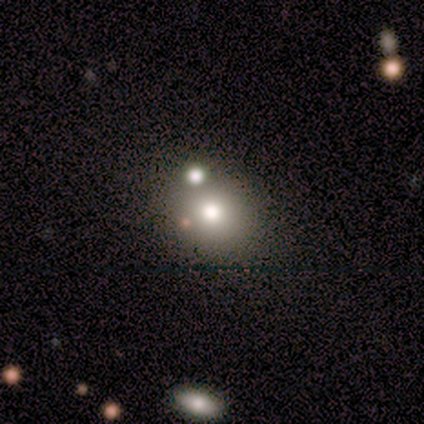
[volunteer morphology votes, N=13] A smooth galaxy with no disk features (62%) that is round (88%). Merging: none (30%, tied with merger).